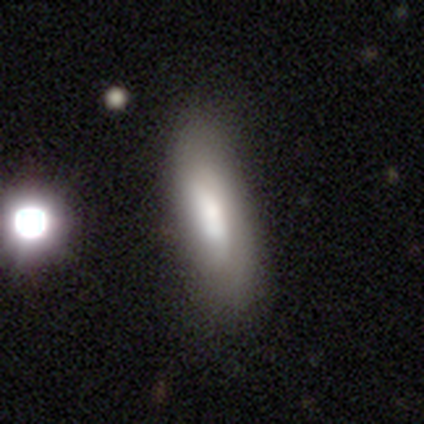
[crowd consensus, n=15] Smooth or featured? 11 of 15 (73%) said smooth. How rounded? 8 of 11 (73%) said cigar-shaped. Merging? 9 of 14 (64%) said none.